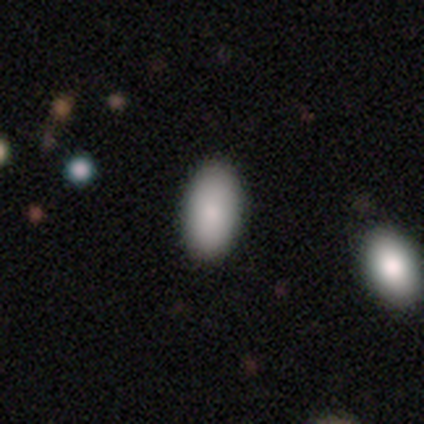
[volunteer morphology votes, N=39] Q: Smooth or featured?
A: smooth (97%); runner-up: featured or disk (3%)
Q: How rounded?
A: in between (95%); runner-up: round (3%)
Q: Merging?
A: none (56%); runner-up: merger (8%)